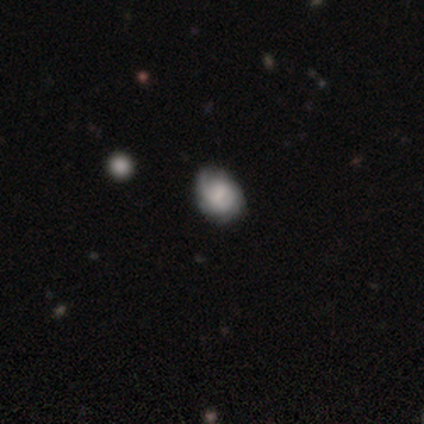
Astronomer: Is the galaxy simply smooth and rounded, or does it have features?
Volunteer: smooth — 50% (runner-up: featured or disk, 40%).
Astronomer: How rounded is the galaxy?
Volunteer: in between — 55% (runner-up: round, 35%).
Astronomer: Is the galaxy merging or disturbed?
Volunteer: none — 61%.